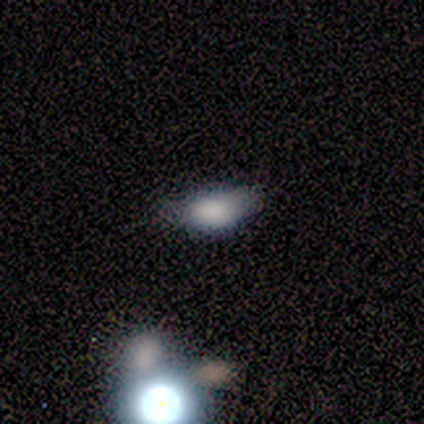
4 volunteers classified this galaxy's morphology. type=smooth (50%); roundness=in between (100%); merging=none (33%, tied with minor disturbance and major disturbance).